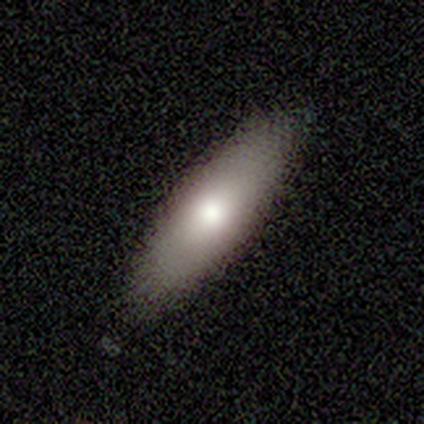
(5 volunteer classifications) Overall: smooth (100%). How rounded: in between (60%; cigar-shaped 40%). Merging: none (100%).